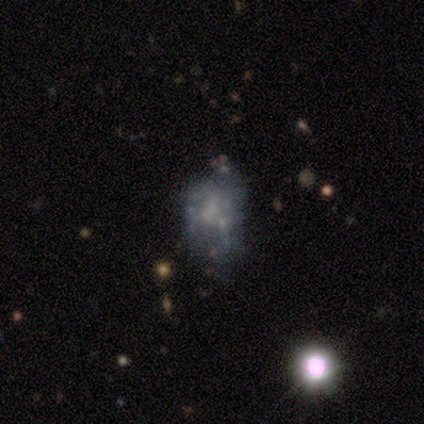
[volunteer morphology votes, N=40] Volunteers were most divided on "merging": none: 54%, minor disturbance: 20%, major disturbance: 17%, merger: 9%. More confident: edge-on disk — no (100%); spiral arms — no (92%); bar — no (88%); bulge size — none (73%); smooth or featured — featured or disk (65%).